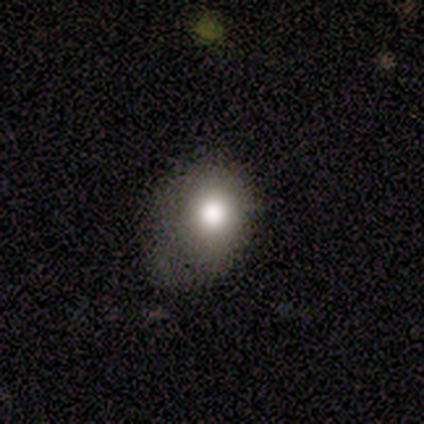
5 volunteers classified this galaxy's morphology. Smooth or featured? 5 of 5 (100%) said smooth. How rounded? 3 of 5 (60%) said in between. Merging? 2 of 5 (40%, tied with minor disturbance) said none.